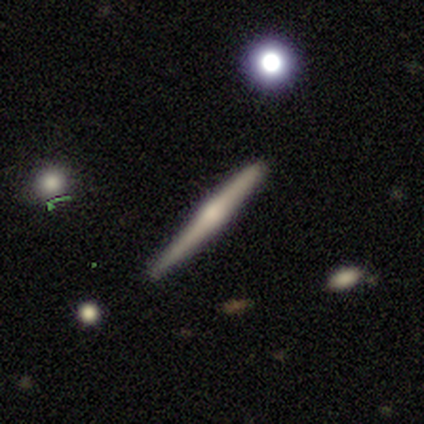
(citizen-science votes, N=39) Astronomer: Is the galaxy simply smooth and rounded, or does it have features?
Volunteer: featured or disk — 72%.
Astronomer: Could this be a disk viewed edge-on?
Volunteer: yes — 100%.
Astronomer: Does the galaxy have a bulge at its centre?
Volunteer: rounded — 71%.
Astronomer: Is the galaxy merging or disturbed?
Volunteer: none — 81%.